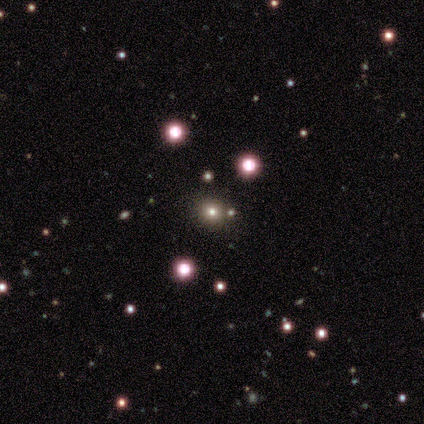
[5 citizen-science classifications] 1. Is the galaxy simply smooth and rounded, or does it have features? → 80% star or artifact, 20% smooth, 0% featured or disk.